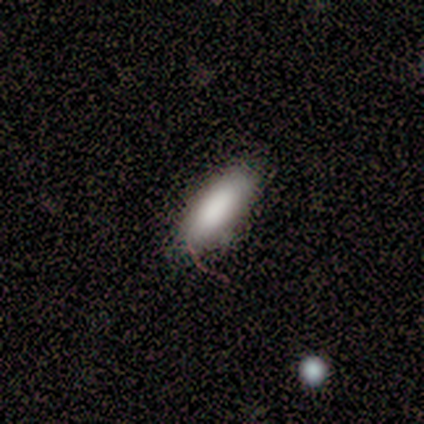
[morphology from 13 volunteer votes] A smooth galaxy with no disk features (85%) that is cigar-shaped (55%). Merging: none (75%).